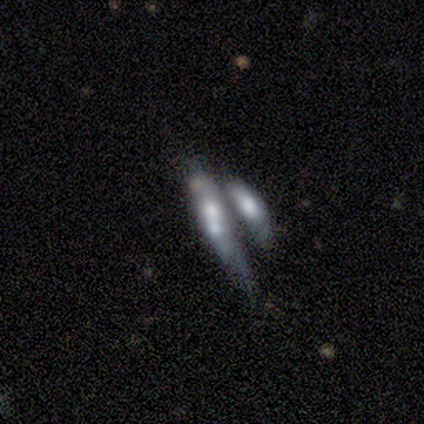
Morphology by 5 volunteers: Smooth or featured? 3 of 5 (60%) said smooth. How rounded? 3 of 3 (100%) said cigar-shaped. Merging? 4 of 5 (80%) said merger.